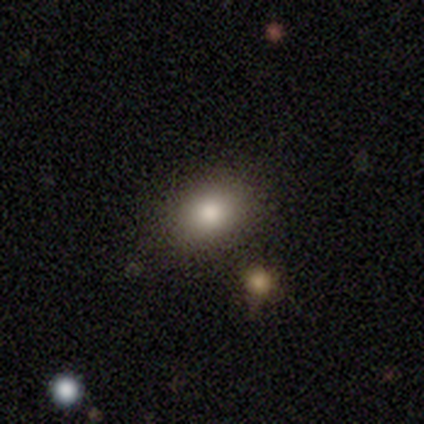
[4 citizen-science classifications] Overall: smooth (75%). How rounded: in between (67%; round 33%). Merging: none (100%).